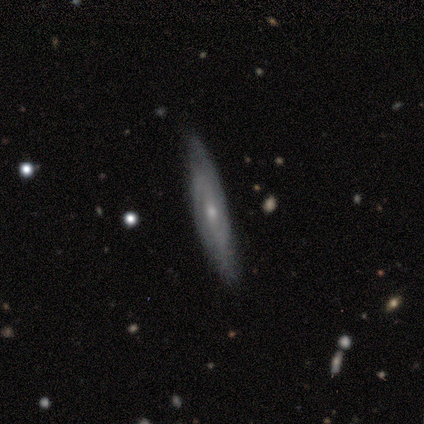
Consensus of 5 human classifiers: A featured or disk galaxy (60%) viewed edge-on (67%) with a rounded central bulge (100%). Merging: none (100%).